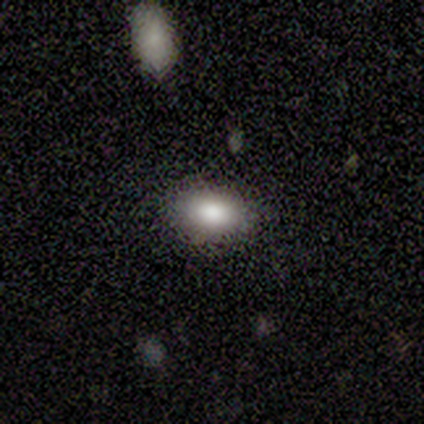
Smooth or featured? 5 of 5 (100%) said smooth. How rounded? 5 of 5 (100%) said in between. Merging? 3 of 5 (60%) said none.